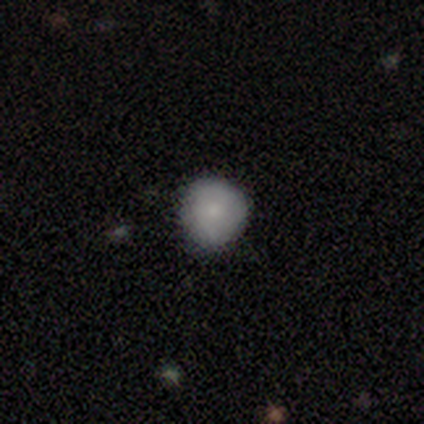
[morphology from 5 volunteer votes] This appears to be a smooth galaxy with no disk features (80%) that is round (100%). Merging: none (60%).